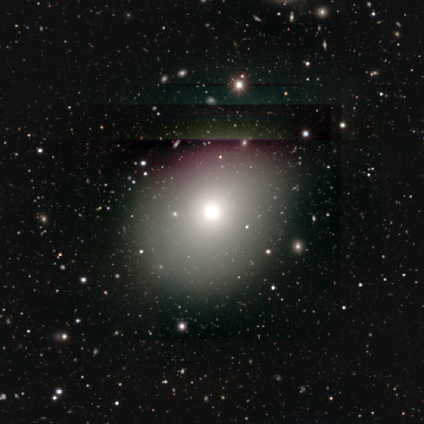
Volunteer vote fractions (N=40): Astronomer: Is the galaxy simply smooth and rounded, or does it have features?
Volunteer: smooth — 57%.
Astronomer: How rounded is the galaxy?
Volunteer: round — 61% (runner-up: in between, 39%).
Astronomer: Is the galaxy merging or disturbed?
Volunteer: none — 85%.